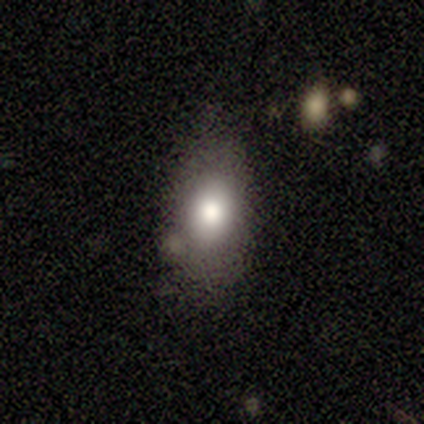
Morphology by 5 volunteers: This appears to be a smooth galaxy with no disk features (80%) that is in between round and cigar-shaped (75%). Merging: minor disturbance (60%).